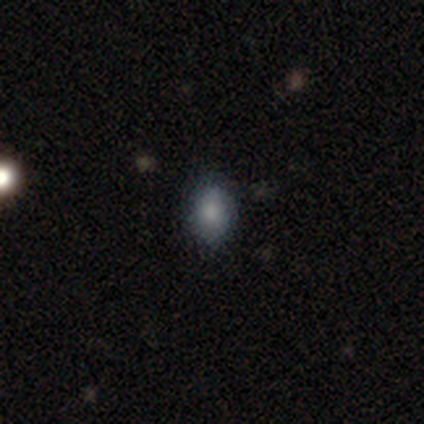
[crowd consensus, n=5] Q: Smooth or featured?
A: smooth (100%)
Q: How rounded?
A: in between (80%); runner-up: round (20%)
Q: Merging?
A: none (100%)